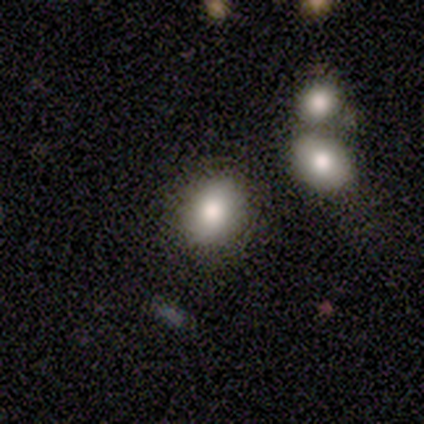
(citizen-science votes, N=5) Volunteers were most divided on "how rounded": in between: 75%, round: 25%, cigar-shaped: 0%. More confident: merging — none (100%); smooth or featured — smooth (80%).